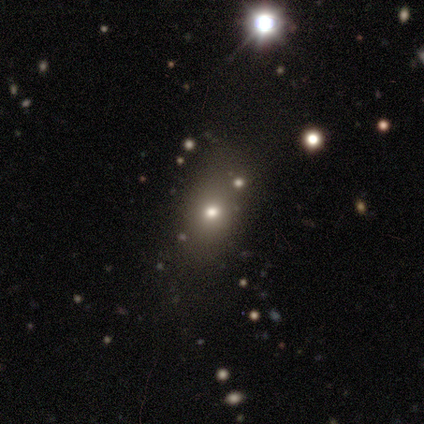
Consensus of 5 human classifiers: Volunteers were most divided on "smooth or featured" (2-way tie): smooth: 40%, featured or disk: 40%, star or artifact: 20%. More confident: how rounded — round (100%); merging — none (50%).